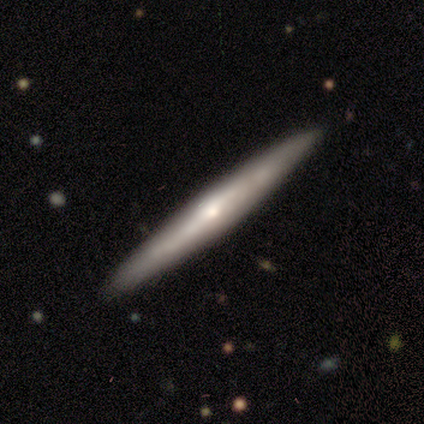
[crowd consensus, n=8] Overall: featured or disk (100%). Edge-on disk: yes (75%). Edge-on bulge: rounded (67%; none 33%). Merging: none (88%).